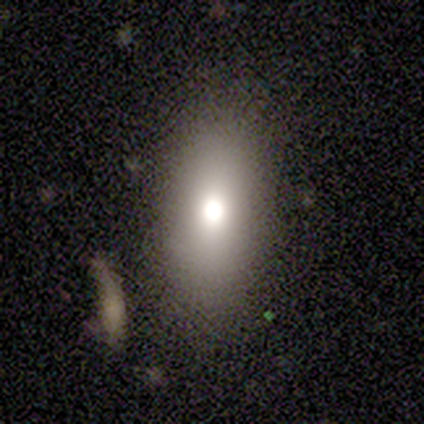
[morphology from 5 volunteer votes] smooth 80%, star or artifact 20%, featured or disk 0%. Down the decision tree: how rounded — in between (75%); merging — none (100%).